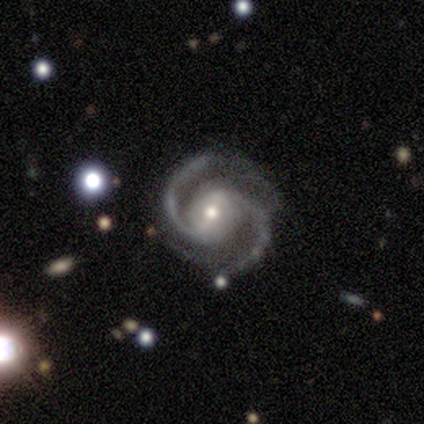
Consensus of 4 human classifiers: Smooth or featured?
  - featured or disk: 75% *
  - smooth: 25%
  - star or artifact: 0%
Edge-on disk?
  - no: 100% *
  - yes: 0%
Bar?
  - strong: 33% * (tied)
  - weak: 33% * (tied)
  - no: 33% * (tied)
Spiral arms?
  - yes: 100% *
  - no: 0%
Spiral winding?
  - medium: 67% *
  - tight: 33%
  - loose: 0%
Spiral arm count?
  - 2: 100% *
  - 1: 0%
  - 3: 0%
  - 4: 0%
  - more than 4: 0%
  - can't tell: 0%
Bulge size?
  - moderate: 100% *
  - dominant: 0%
  - large: 0%
  - small: 0%
  - none: 0%
Merging?
  - none: 75% *
  - major disturbance: 25%
  - minor disturbance: 0%
  - merger: 0%